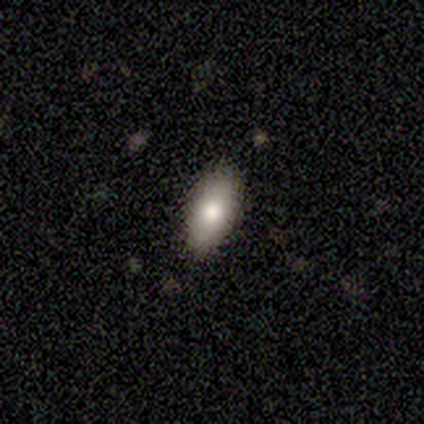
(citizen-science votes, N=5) Smooth or featured? smooth (100%)
How rounded? in between (100%)
Merging? none (100%)